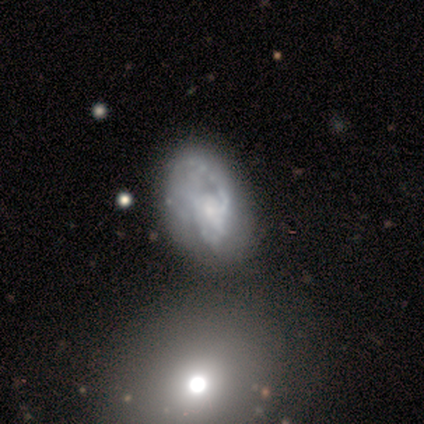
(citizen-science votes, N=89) Smooth or featured: featured or disk — 74% (smooth — 21%)
Edge-on disk: no — 98% (yes — 2%)
Bar: no — 80% (weak — 14%)
Spiral arms: yes — 63% (no — 37%)
Spiral winding: medium — 39% (tied with loose — 39%)
Spiral arm count: can't tell — 41% (2 — 39%)
Bulge size: small — 46% (moderate — 31%)
Merging: none — 39% (major disturbance — 31%)